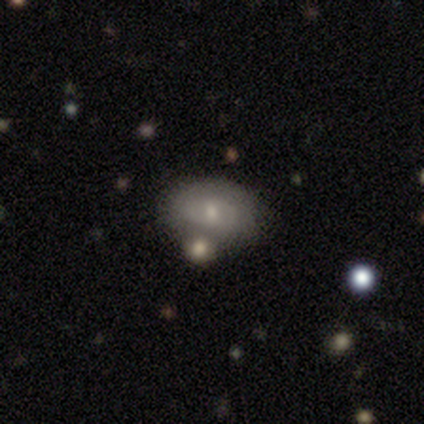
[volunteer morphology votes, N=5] Overall: featured or disk (60%; smooth 40%). Edge-on disk: no (100%). Bar: no (67%; strong 33%). Spiral arms: no (67%; yes 33%). Bulge size: moderate (67%; small 33%). Merging: none (100%).